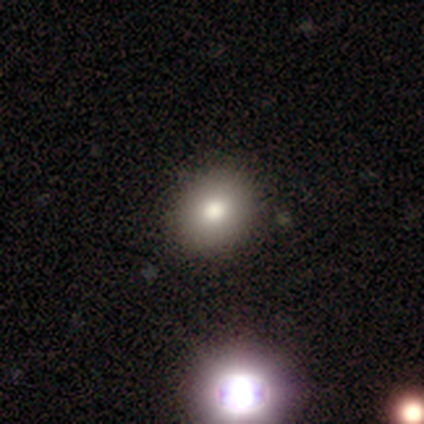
A featured or disk galaxy (50%) with a weak bar (50%, tied with no), no spiral arms (100%) and a small central bulge (100%). Merging: none (80%).